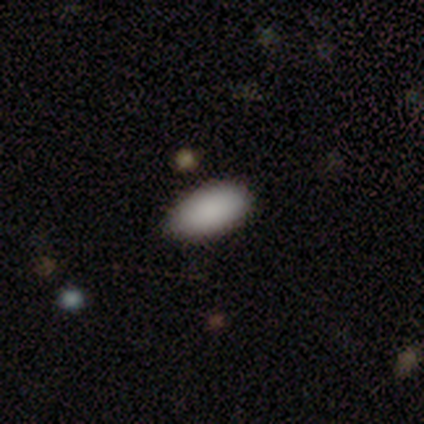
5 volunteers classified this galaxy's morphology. Overall: smooth (100%). How rounded: in between (100%). Merging: minor disturbance (60%; none 20%).